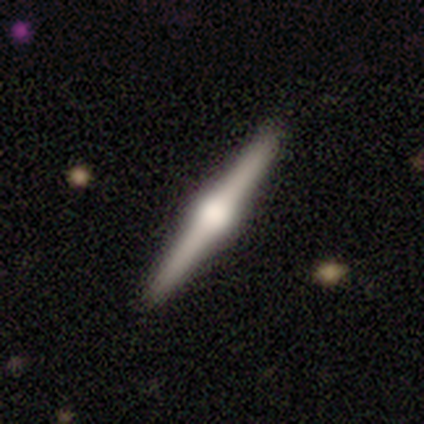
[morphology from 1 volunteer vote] A featured or disk galaxy (100%) viewed edge-on (100%) with a rounded central bulge (100%). Merging: none (100%).